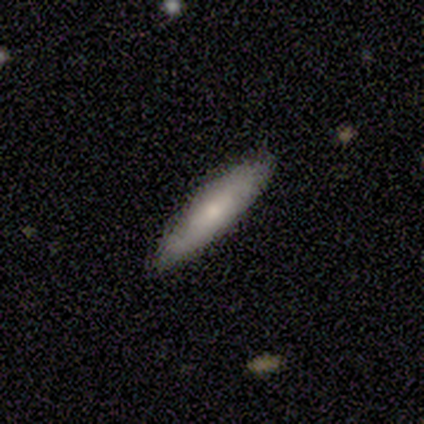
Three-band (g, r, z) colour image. It shows a smooth galaxy with no disk features (69%) that is cigar-shaped (76%). Merging: none (86%).